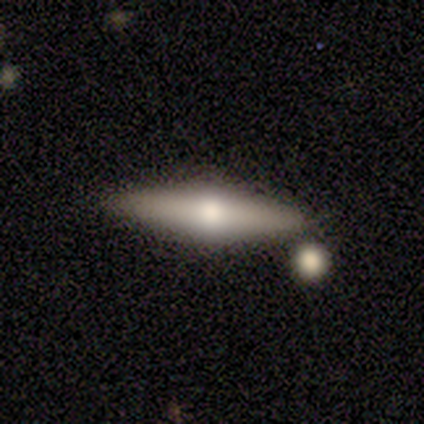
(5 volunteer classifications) Morphology: type=smooth (60%); roundness=cigar-shaped (67%); merging=none (100%).